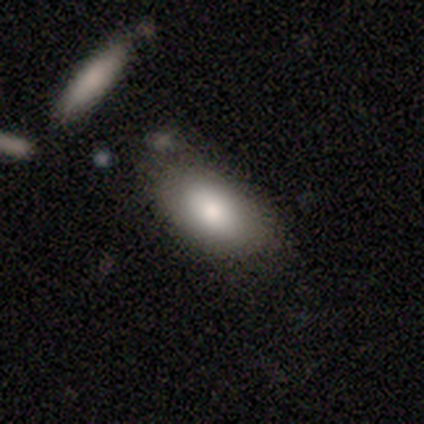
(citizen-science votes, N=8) Morphology: type=smooth (88%); roundness=in between (100%); merging=none (50%).